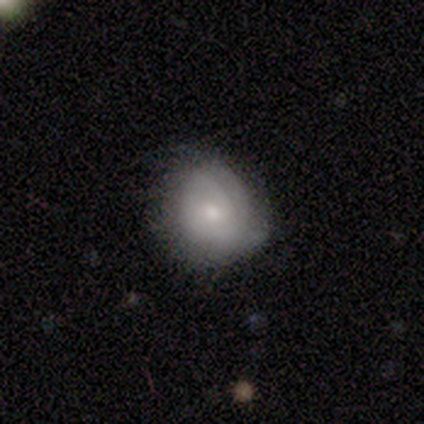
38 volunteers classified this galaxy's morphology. Overall: smooth (53%; featured or disk 42%). How rounded: round (65%; in between 35%). Merging: none (47%; minor disturbance 44%).